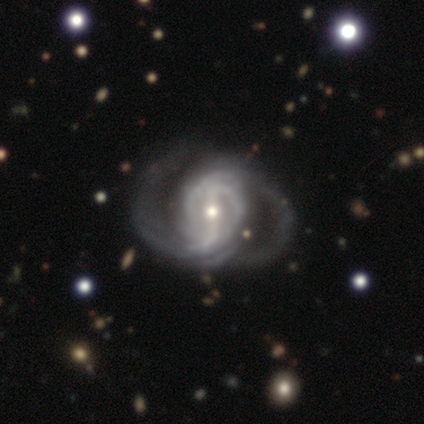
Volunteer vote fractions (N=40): Smooth or featured: featured or disk — 90% (smooth — 5%)
Edge-on disk: no — 100%
Bar: strong — 50% (weak — 39%)
Spiral arms: yes — 89% (no — 11%)
Spiral winding: medium — 53% (tight — 28%)
Spiral arm count: 2 — 62% (can't tell — 19%)
Bulge size: moderate — 58% (small — 36%)
Merging: none — 50% (minor disturbance — 24%)